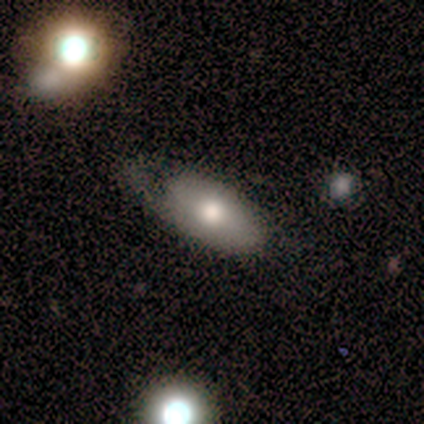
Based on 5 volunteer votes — Volunteers were most divided on "merging": none: 50%, minor disturbance: 25%, major disturbance: 25%, merger: 0%. More confident: how rounded — in between (100%); smooth or featured — smooth (60%).